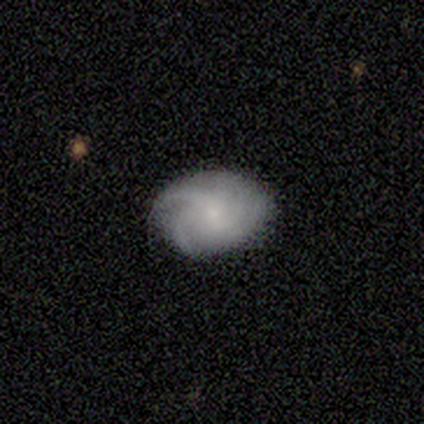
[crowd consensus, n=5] A smooth galaxy with no disk features (40%, tied with featured or disk) that is round (50%, tied with in between).

Vote fractions:
- Smooth or featured? smooth: 40% (tied) / featured or disk: 40% (tied) / star or artifact: 20%
- How rounded? round: 50% (tied) / in between: 50% (tied) / cigar-shaped: 0%
- Merging? none: 75% / minor disturbance: 25% / major disturbance: 0% / merger: 0%